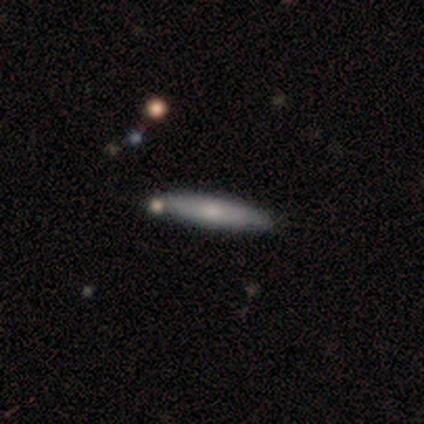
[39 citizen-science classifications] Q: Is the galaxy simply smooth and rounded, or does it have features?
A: smooth — 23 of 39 (59%).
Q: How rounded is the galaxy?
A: cigar-shaped — 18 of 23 (78%).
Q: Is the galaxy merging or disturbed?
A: none — 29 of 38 (76%).